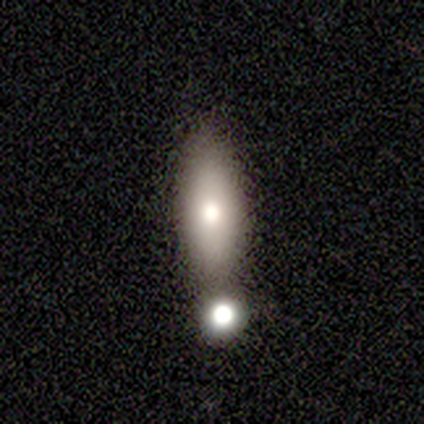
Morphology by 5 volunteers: Smooth or featured?
  - featured or disk: 80% *
  - smooth: 20%
  - star or artifact: 0%
Edge-on disk?
  - yes: 75% *
  - no: 25%
Edge-on bulge?
  - rounded: 100% *
  - boxy: 0%
  - none: 0%
Merging?
  - merger: 80% *
  - none: 20%
  - minor disturbance: 0%
  - major disturbance: 0%